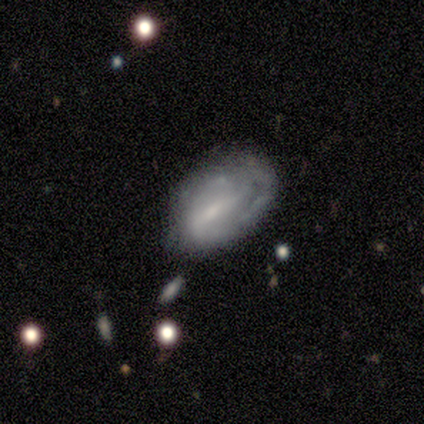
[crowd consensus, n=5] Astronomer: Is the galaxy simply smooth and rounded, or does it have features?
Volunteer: featured or disk — 80%.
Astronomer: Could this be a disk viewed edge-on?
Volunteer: no — 100%.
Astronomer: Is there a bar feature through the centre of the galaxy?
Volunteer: weak — 50%.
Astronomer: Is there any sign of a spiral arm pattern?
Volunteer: yes — 50%, tied with no at 50%.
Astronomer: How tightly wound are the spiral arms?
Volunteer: medium — 50%, tied with loose at 50%.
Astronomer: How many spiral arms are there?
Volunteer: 2 — 50%, tied with can't tell at 50%.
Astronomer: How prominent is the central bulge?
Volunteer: none — 50%.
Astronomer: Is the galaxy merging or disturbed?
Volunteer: none — 60%.